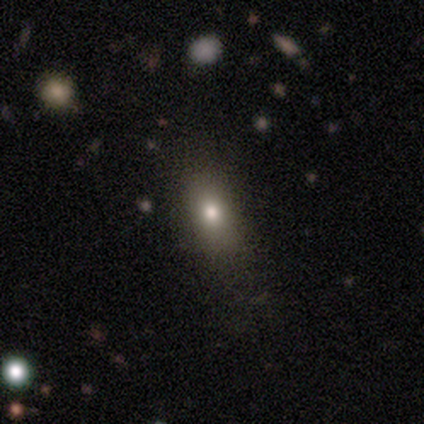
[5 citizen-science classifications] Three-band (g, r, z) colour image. It shows a smooth galaxy with no disk features (80%) that is in between round and cigar-shaped (100%). Merging: none (80%).